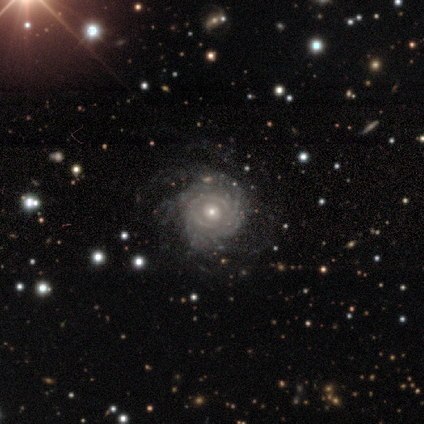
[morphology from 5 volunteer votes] A featured or disk galaxy (80%) with no bar (100%), tight (50%) spiral arms (100%) and a moderate central bulge (50%, tied with small). Merging: none (80%).